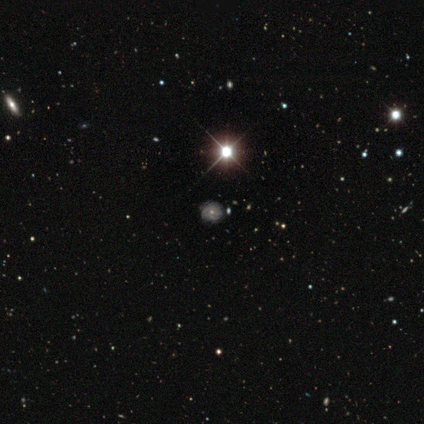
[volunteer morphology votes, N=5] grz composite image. It shows a featured or disk galaxy (40%, tied with star or artifact) with a strong bar (50%, tied with no), tight (50%, tied with loose) spiral arms (100%) and a large central bulge (100%). Merging: none (67%).